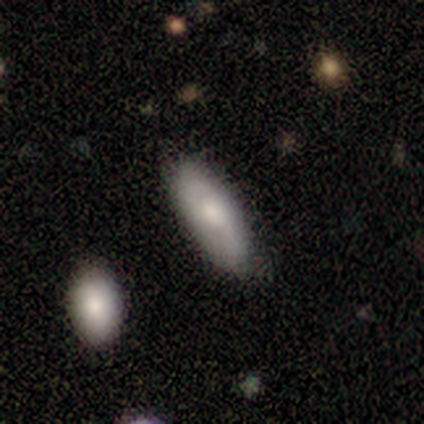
This appears to be a featured or disk galaxy (60%) with no bar (100%), 2 (100%) loose (100%) spiral arms (50%, tied with no) and a moderate central bulge (50%, tied with small). Merging: none (60%).